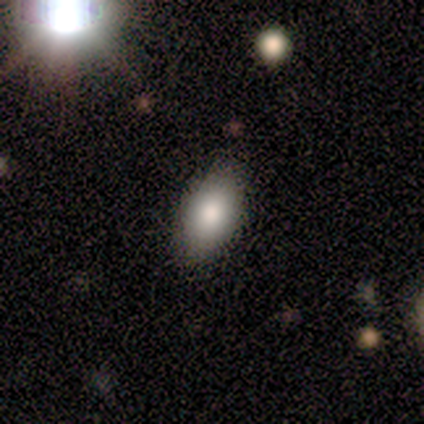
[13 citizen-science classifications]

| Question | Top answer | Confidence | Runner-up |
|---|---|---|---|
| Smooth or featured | smooth | 62% | featured or disk (23%) |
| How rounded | in between | 88% | round (12%) |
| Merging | none | 91% | major disturbance (9%) |